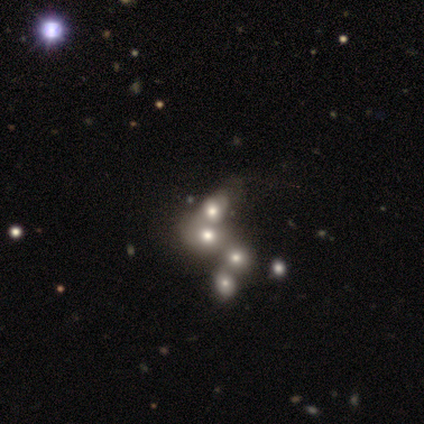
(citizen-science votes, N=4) smooth-or-featured: star or artifact: 75% | smooth: 25% | featured or disk: 0%